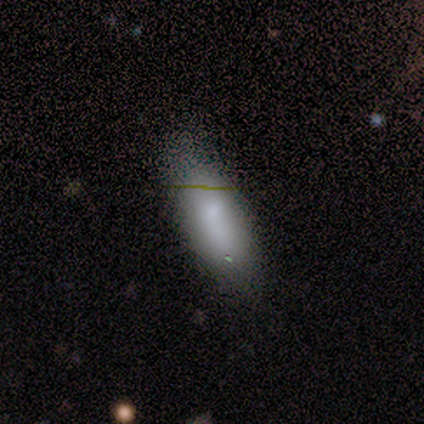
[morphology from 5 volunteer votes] This is clearly a smooth galaxy (80%). How rounded: likely in between (75%). Merging: clearly none (100%).